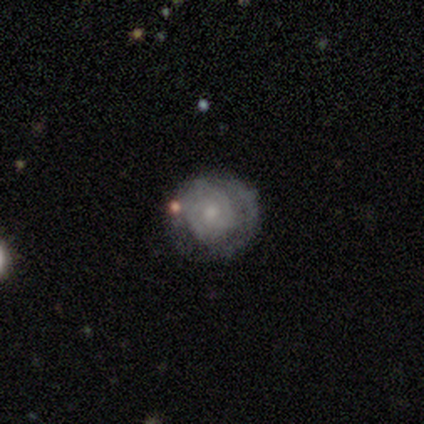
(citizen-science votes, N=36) Overall: featured or disk (64%; smooth 28%). Edge-on disk: no (96%). Bar: no (82%). Spiral arms: yes (77%). Spiral arm count: can't tell (47%; 2 24%). Spiral winding: tight (94%). Bulge size: moderate (59%; small 41%). Merging: none (82%).